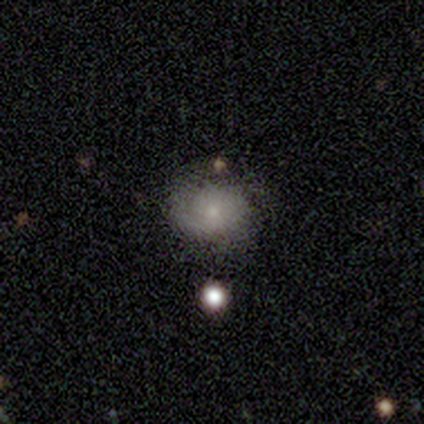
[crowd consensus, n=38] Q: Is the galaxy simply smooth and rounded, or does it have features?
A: smooth — 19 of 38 (50%).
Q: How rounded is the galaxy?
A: round — 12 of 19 (63%).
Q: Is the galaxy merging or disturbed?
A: none — 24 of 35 (69%).